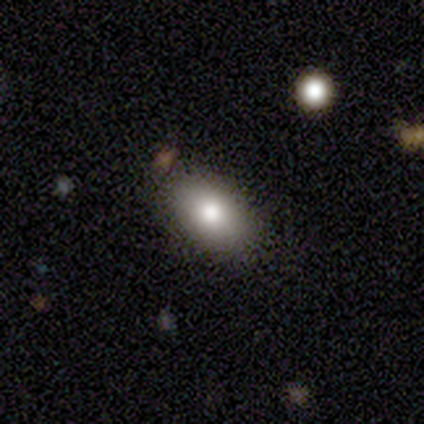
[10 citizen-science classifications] A smooth galaxy with no disk features (70%) that is in between round and cigar-shaped (100%).

Vote fractions:
- Smooth or featured? smooth: 70% / featured or disk: 20% / star or artifact: 10%
- How rounded? in between: 100% / round: 0% / cigar-shaped: 0%
- Merging? none: 100% / minor disturbance: 0% / major disturbance: 0% / merger: 0%